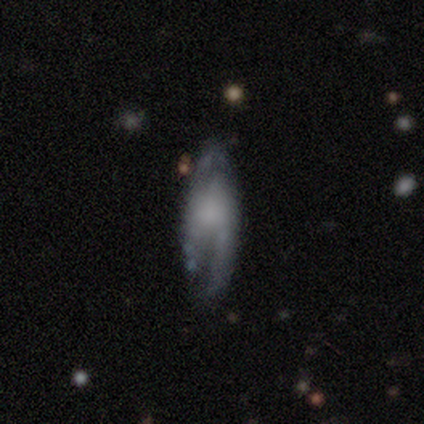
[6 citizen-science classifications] featured or disk 100%, smooth 0%, star or artifact 0%. Down the decision tree: edge-on disk — no (100%); bar — no (67%); spiral arms — yes (100%); spiral arm count — 2 (67%); spiral winding — tight (50%); bulge size — small (33%, tied with none); merging — none (50%, tied with minor disturbance).